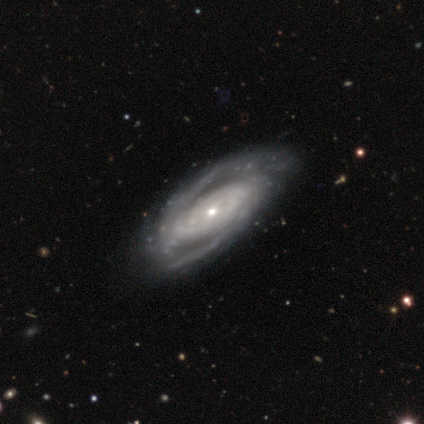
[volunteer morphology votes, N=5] featured or disk 80%, star or artifact 20%, smooth 0%. Down the decision tree: edge-on disk — no (100%); bar — no (75%); spiral arms — yes (100%); spiral arm count — 2 (50%, tied with can't tell); spiral winding — tight (75%); bulge size — moderate (50%); merging — none (75%).